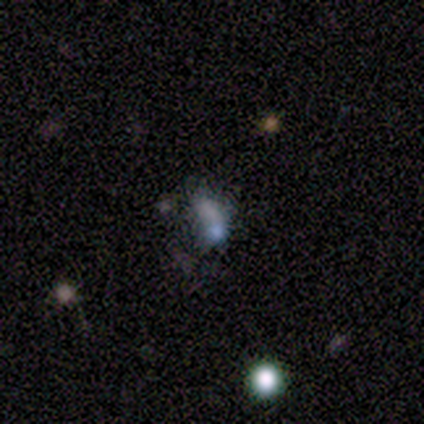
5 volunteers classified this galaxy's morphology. This is likely a smooth galaxy (60%). How rounded: likely in between (67%). Merging: likely minor disturbance (67%).